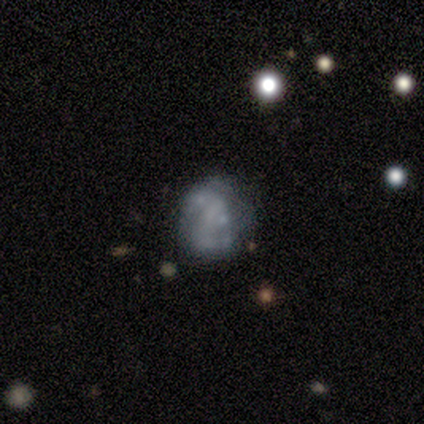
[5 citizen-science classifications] Morphology: type=smooth (80%); roundness=round (75%); merging=none (80%).